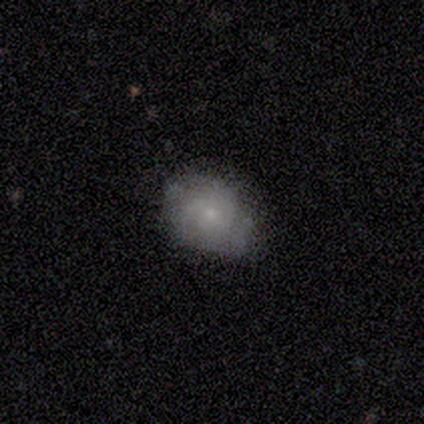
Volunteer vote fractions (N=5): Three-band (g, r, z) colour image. It shows a smooth galaxy with no disk features (40%, tied with featured or disk) that is in between round and cigar-shaped (100%). Merging: none (75%).